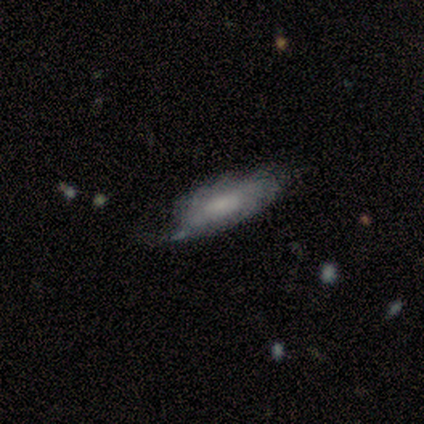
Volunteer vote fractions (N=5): Morphology: type=featured or disk (60%); edge-on=no (67%); bar=weak (50%, tied with no); spiral arms=yes (100%); winding=tight (50%, tied with medium); arm count=1 (50%, tied with can't tell); bulge=none (100%); merging=none (75%).